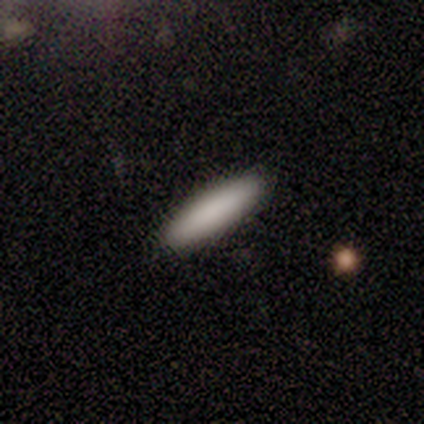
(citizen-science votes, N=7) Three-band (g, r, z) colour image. It shows a smooth galaxy with no disk features (100%) that is cigar-shaped (71%). Merging: none (100%).